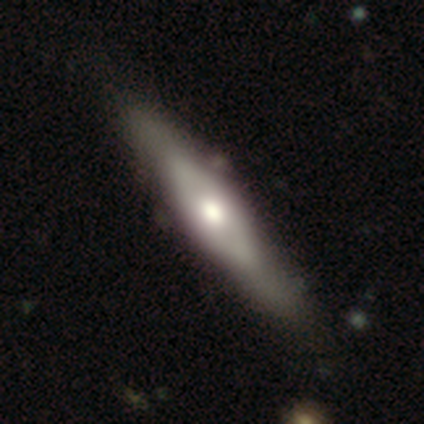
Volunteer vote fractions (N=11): This is possibly a featured or disk galaxy (55%). It is clearly viewed edge-on (83%). Edge-on bulge: clearly rounded (100%). Merging: clearly none (100%).